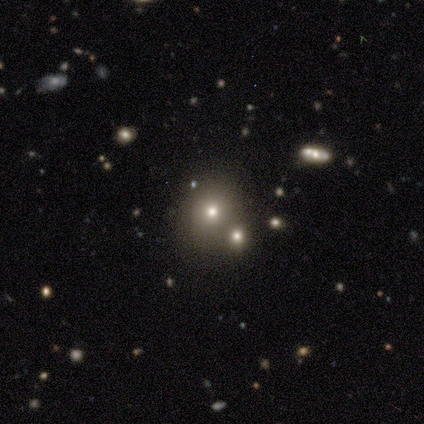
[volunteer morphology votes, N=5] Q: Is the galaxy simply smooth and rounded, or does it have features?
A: smooth — 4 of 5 (80%).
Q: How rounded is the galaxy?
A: round — 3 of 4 (75%).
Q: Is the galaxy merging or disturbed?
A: none — 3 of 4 (75%).